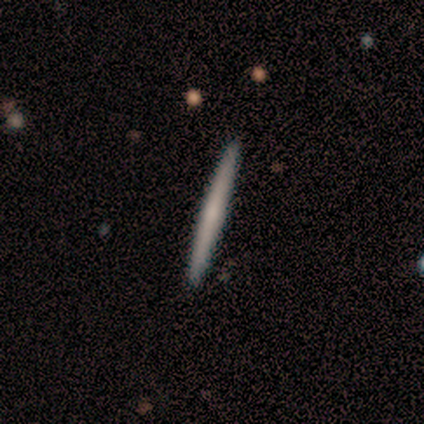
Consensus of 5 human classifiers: Morphology: type=featured or disk (60%); edge-on=yes (67%); edge-on bulge=rounded (100%); merging=none (80%).